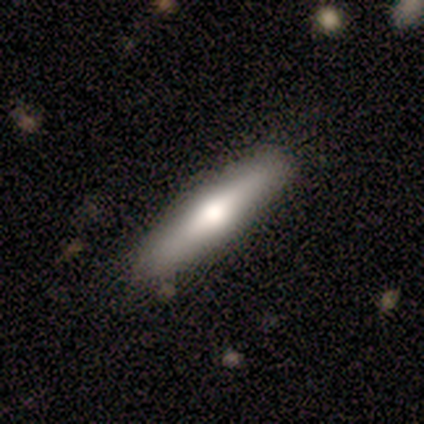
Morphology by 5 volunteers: smooth-or-featured: featured or disk: 80% | smooth: 20% | star or artifact: 0%
  disk-edge-on: yes: 100% | no: 0%
    edge-on-bulge: rounded: 100% | boxy: 0% | none: 0%
  merging: none: 80% | minor disturbance: 20% | major disturbance: 0% | merger: 0%